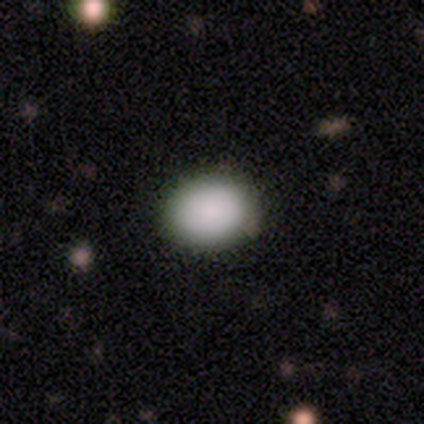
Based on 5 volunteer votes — This is clearly a smooth galaxy (80%). How rounded: possibly round (50%, tied with in between). Merging: clearly none (100%).